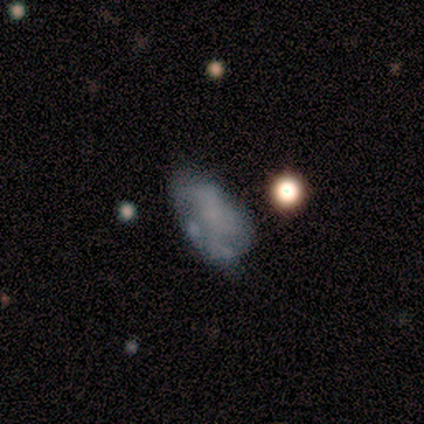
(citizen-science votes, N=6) Smooth or featured?
  - smooth: 50% * (tied)
  - featured or disk: 50% * (tied)
  - star or artifact: 0%
How rounded?
  - in between: 100% *
  - round: 0%
  - cigar-shaped: 0%
Merging?
  - none: 50% *
  - major disturbance: 33%
  - minor disturbance: 17%
  - merger: 0%